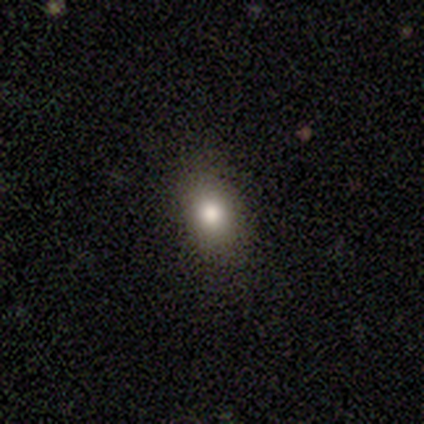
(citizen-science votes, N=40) Smooth or featured: smooth — 62% (featured or disk — 20%)
How rounded: in between — 60% (round — 40%)
Merging: none — 85% (minor disturbance — 15%)